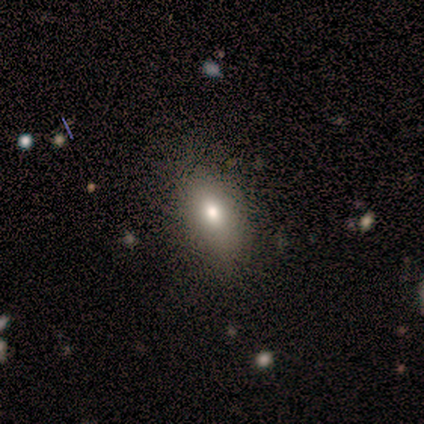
A smooth galaxy with no disk features (67%) that is in between round and cigar-shaped (83%). Merging: none (83%).